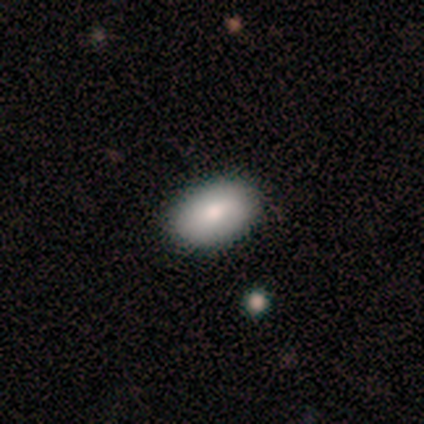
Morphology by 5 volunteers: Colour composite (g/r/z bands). It shows a smooth galaxy with no disk features (80%) that is in between round and cigar-shaped (100%). Merging: none (100%).